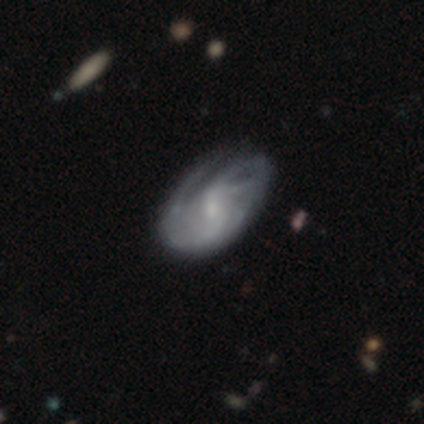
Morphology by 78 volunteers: Smooth or featured? featured or disk (77%)
Edge-on disk? no (95%)
Bar? weak (53%)
Spiral arms? yes (91%)
Spiral winding? tight (46%)
Spiral arm count? can't tell (38%)
Bulge size? small (51%)
Merging? none (25%)